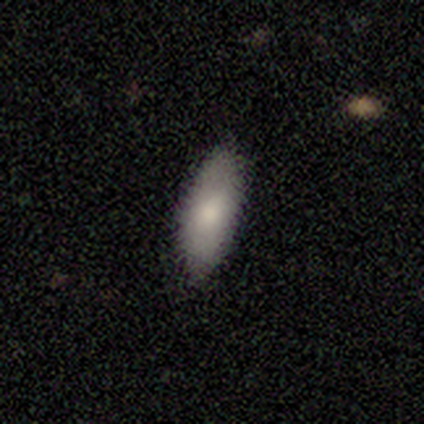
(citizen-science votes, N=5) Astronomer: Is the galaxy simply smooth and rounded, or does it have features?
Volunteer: smooth — 100%.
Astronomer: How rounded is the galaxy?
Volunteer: in between — 100%.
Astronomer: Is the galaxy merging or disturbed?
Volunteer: none — 100%.